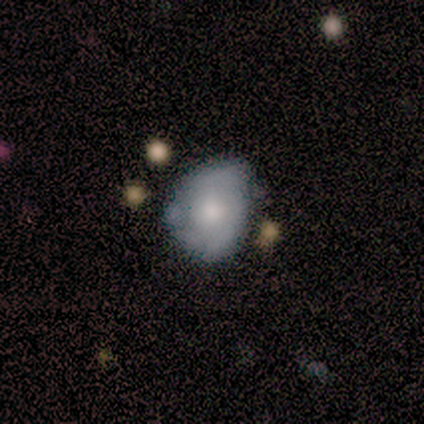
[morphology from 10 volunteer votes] type=featured or disk (50%); edge-on=no (100%); bar=no (60%); spiral arms=no (80%); bulge=moderate (80%); merging=minor disturbance (56%).